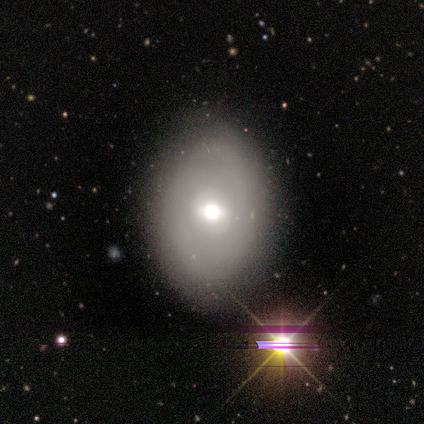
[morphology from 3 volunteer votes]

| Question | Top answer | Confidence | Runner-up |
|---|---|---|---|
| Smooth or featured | smooth | 67% | star or artifact (33%) |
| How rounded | in between | 100% | — |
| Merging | none | 50% | tied: minor disturbance (50%) |